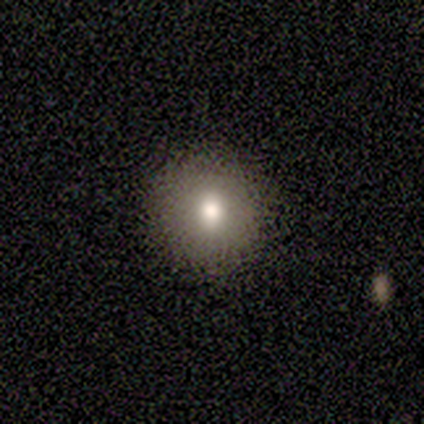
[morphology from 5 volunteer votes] Smooth or featured? 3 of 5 (60%) said featured or disk. Edge-on disk? 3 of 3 (100%) said no. Bar? 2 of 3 (67%) said no. Spiral arms? 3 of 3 (100%) said no. Bulge size? 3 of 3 (100%) said moderate. Merging? 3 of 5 (60%) said none.